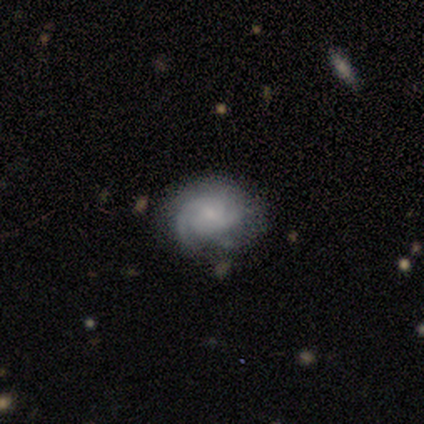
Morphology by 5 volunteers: smooth-or-featured: featured or disk: 80% | smooth: 20% | star or artifact: 0%
  disk-edge-on: no: 100% | yes: 0%
    bar: no: 75% | weak: 25% | strong: 0%
    has-spiral-arms: yes: 100% | no: 0%
      spiral-winding: tight: 50% (tied) | medium: 50% (tied) | loose: 0%
      spiral-arm-count: 2: 50% | 1: 25% | can't tell: 25% | 3: 0% | 4: 0% | more than 4: 0%
    bulge-size: small: 50% | large: 25% | none: 25% | dominant: 0% | moderate: 0%
  merging: minor disturbance: 60% | none: 40% | major disturbance: 0% | merger: 0%